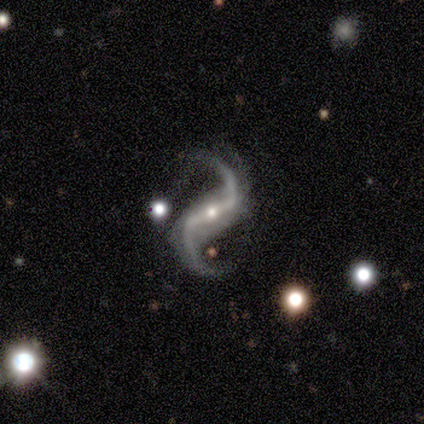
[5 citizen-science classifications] smooth-or-featured: featured or disk: 100% | smooth: 0% | star or artifact: 0%
  disk-edge-on: no: 100% | yes: 0%
    bar: strong: 40% (tied) | weak: 40% (tied) | no: 20%
    has-spiral-arms: yes: 100% | no: 0%
      spiral-winding: loose: 80% | medium: 20% | tight: 0%
      spiral-arm-count: 2: 80% | 1: 20% | 3: 0% | 4: 0% | more than 4: 0% | can't tell: 0%
    bulge-size: small: 60% | moderate: 40% | dominant: 0% | large: 0% | none: 0%
  merging: none: 60% | minor disturbance: 40% | major disturbance: 0% | merger: 0%